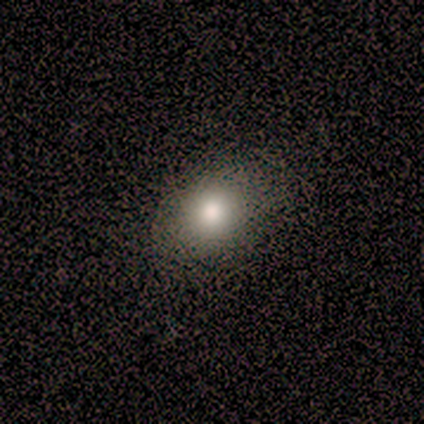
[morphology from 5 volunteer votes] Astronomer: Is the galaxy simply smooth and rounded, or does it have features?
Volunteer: smooth — 100%.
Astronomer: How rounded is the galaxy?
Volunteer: round — 60% (runner-up: in between, 40%).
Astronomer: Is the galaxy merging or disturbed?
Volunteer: none — 60% (runner-up: minor disturbance, 40%).